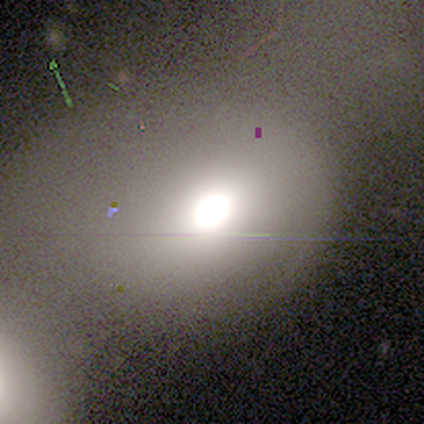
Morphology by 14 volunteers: Smooth or featured?
  - smooth: 36% * (tied)
  - star or artifact: 36% * (tied)
  - featured or disk: 29%
How rounded?
  - round: 60% *
  - in between: 40%
  - cigar-shaped: 0%
Merging?
  - merger: 44% *
  - none: 33%
  - major disturbance: 22%
  - minor disturbance: 0%